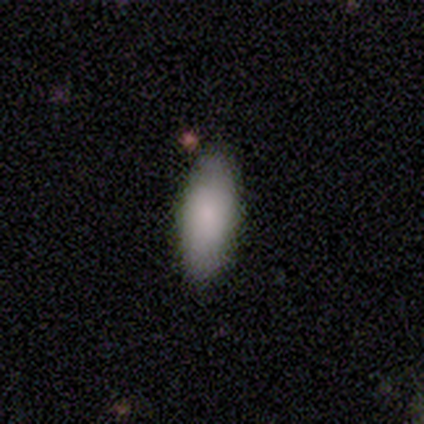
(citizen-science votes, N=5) smooth_or_featured: smooth (p=1.00)
how_rounded: in between (p=0.60) [alt: cigar-shaped p=0.40]
merging: none (p=0.60) [alt: minor disturbance p=0.40]